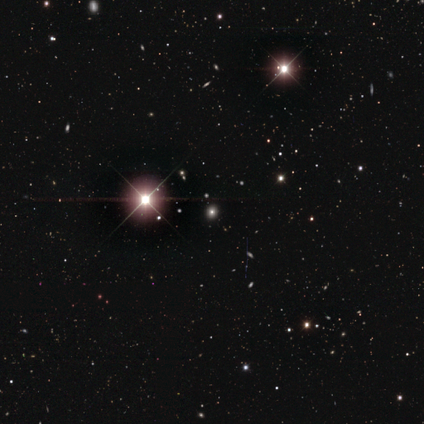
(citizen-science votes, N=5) Smooth or featured? star or artifact (80%)